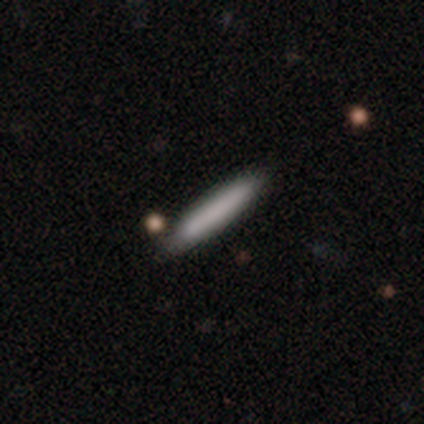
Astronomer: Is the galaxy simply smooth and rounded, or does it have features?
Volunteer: smooth — 60%.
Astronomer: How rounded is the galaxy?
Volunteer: cigar-shaped — 100%.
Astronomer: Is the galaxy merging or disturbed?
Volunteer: minor disturbance — 75%.